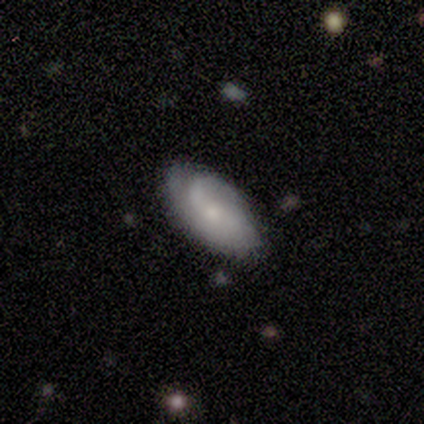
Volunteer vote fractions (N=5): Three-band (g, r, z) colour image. It shows a featured or disk galaxy (100%) with no bar (50%), 2 (50%) medium (50%) spiral arms (100%) and a moderate central bulge (50%, tied with small). Merging: none (100%).